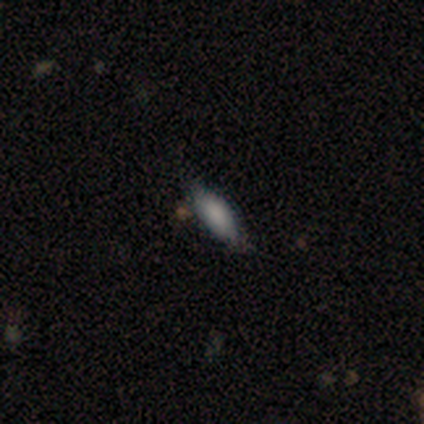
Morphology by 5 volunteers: This is likely a smooth galaxy (60%). How rounded: likely in between (67%). Merging: clearly none (100%).